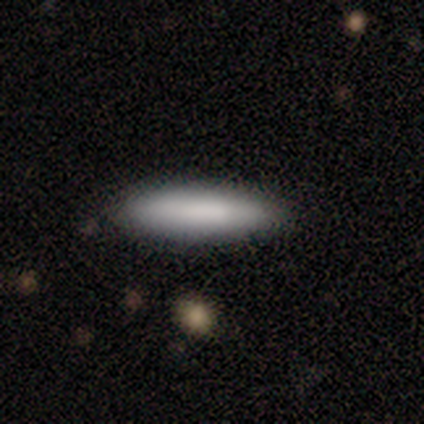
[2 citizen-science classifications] Overall: smooth (100%). How rounded: in between (50%, tied with cigar-shaped). Merging: none (100%).